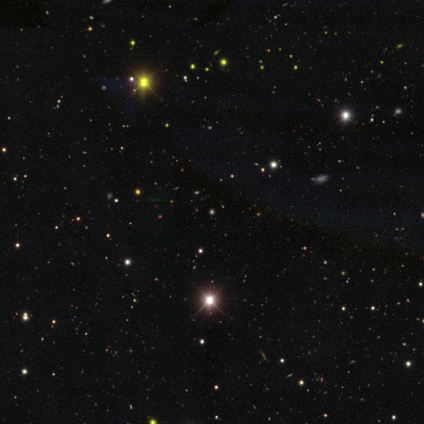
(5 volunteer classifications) Smooth or featured: star or artifact — 100%